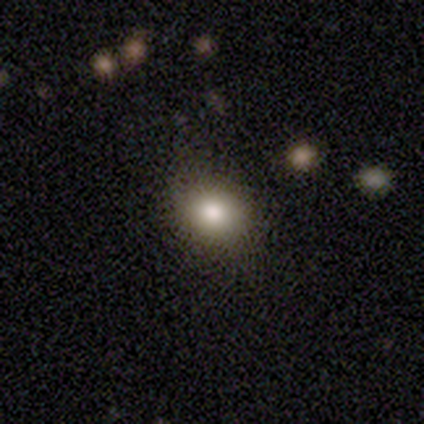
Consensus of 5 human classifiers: smooth 100%, featured or disk 0%, star or artifact 0%. Down the decision tree: how rounded — in between (60%); merging — none (80%).